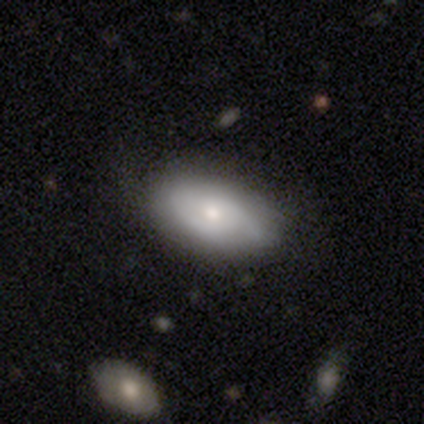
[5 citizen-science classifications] Morphology: type=featured or disk (60%); edge-on=no (100%); bar=no (67%); spiral arms=yes (100%); winding=tight (33%, tied with medium and loose); arm count=2 (100%); bulge=small (67%); merging=minor disturbance (60%).